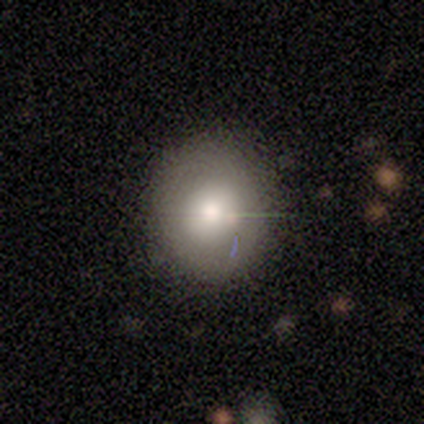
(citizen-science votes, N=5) Overall: smooth (80%). How rounded: round (75%). Merging: none (100%).